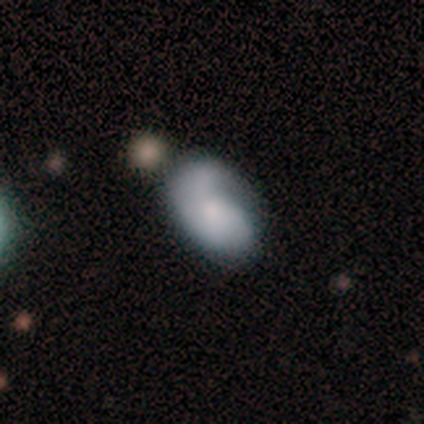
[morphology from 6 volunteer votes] type=featured or disk (83%); edge-on=no (100%); bar=no (100%); spiral arms=yes (80%); winding=medium (100%); arm count=can't tell (50%); bulge=moderate (40%, tied with small); merging=none (67%).